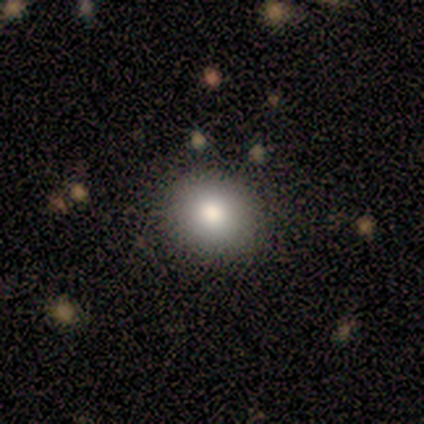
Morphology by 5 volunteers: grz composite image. It shows a smooth galaxy with no disk features (60%) that is round (100%). Merging: none (100%).